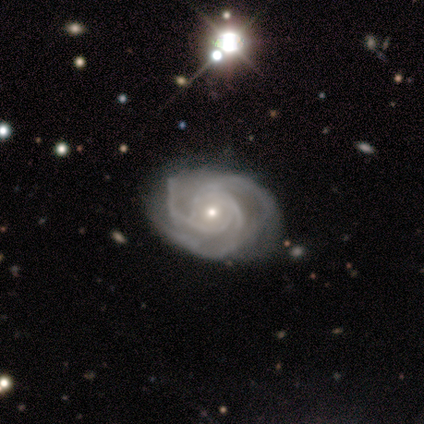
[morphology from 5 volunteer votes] This appears to be a featured or disk galaxy (100%) with no bar (100%), 3 (60%) tight (60%) spiral arms (100%) and a small central bulge (80%). Merging: minor disturbance (60%).